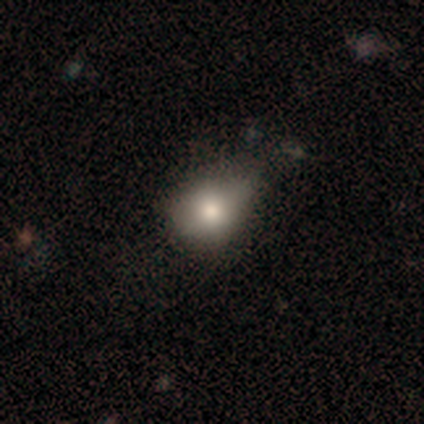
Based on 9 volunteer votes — Overall: smooth (78%). How rounded: in between (86%). Merging: none (50%; minor disturbance 38%).